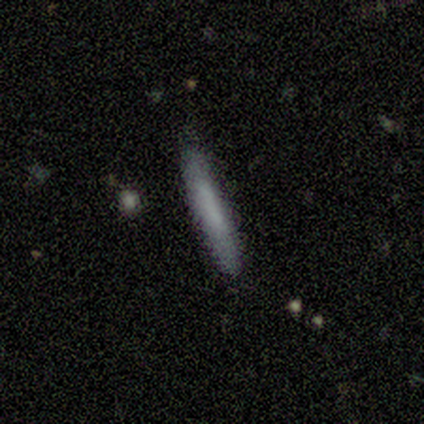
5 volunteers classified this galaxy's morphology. smooth_or_featured: smooth (p=1.00)
how_rounded: cigar-shaped (p=1.00)
merging: none (p=0.80) [alt: major disturbance p=0.20]